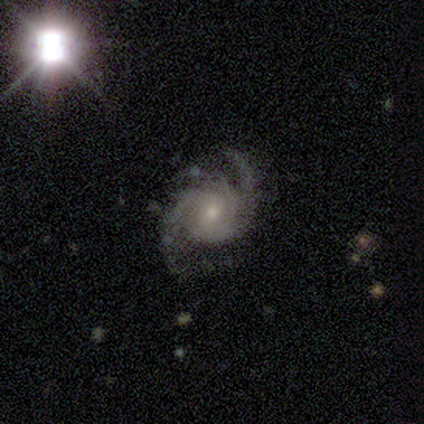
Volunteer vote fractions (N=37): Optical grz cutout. It shows a featured or disk galaxy (84%) with no bar (61%), 2 (45%, tied with 3) tight (42%, tied with medium) spiral arms (100%) and a moderate central bulge (48%, tied with small). Merging: none (56%).